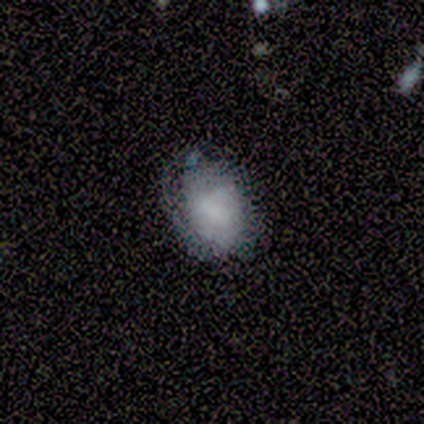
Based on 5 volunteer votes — Smooth or featured?
  - smooth: 80% *
  - featured or disk: 20%
  - star or artifact: 0%
How rounded?
  - in between: 75% *
  - round: 25%
  - cigar-shaped: 0%
Merging?
  - none: 60% *
  - minor disturbance: 20%
  - major disturbance: 20%
  - merger: 0%